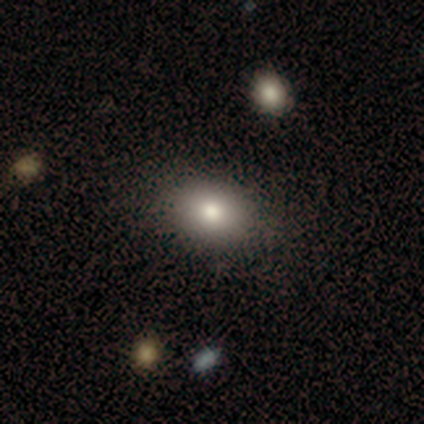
Q: Smooth or featured?
A: smooth (75%); runner-up: featured or disk (25%)
Q: How rounded?
A: round (67%); runner-up: in between (33%)
Q: Merging?
A: none (100%)